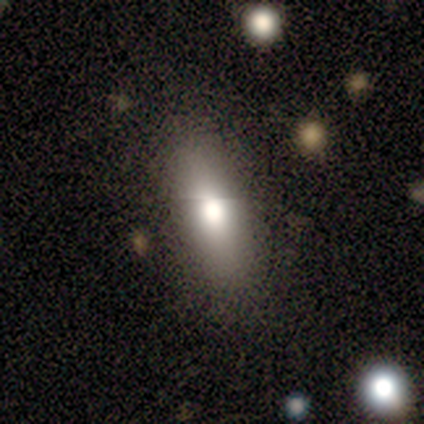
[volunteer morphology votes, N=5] A smooth galaxy with no disk features (80%) that is in between round and cigar-shaped (75%).

Vote fractions:
- Smooth or featured? smooth: 80% / featured or disk: 20% / star or artifact: 0%
- How rounded? in between: 75% / cigar-shaped: 25% / round: 0%
- Merging? none: 100% / minor disturbance: 0% / major disturbance: 0% / merger: 0%